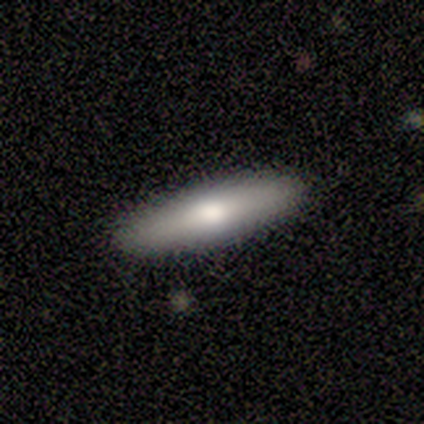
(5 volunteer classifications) This is likely a featured or disk galaxy (60%). It is likely viewed edge-on (67%). Edge-on bulge: clearly rounded (100%). Merging: clearly none (80%).